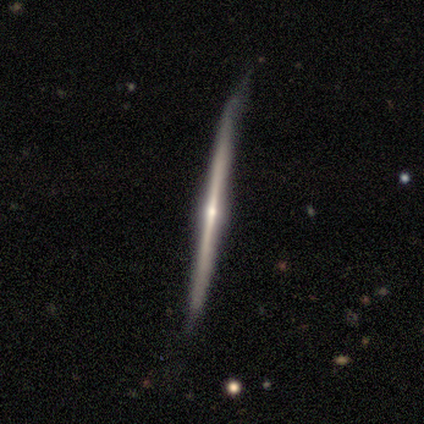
smooth-or-featured: featured or disk: 100% | smooth: 0% | star or artifact: 0%
  disk-edge-on: yes: 100% | no: 0%
    edge-on-bulge: rounded: 100% | boxy: 0% | none: 0%
  merging: none: 67% | minor disturbance: 33% | major disturbance: 0% | merger: 0%